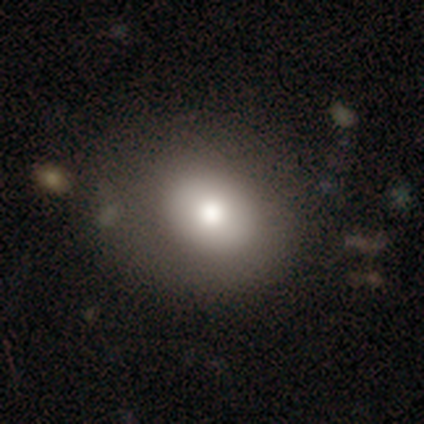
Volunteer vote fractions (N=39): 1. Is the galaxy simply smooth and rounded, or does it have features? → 72% smooth, 18% featured or disk, 10% star or artifact.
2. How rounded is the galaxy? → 61% round, 39% in between, 0% cigar-shaped.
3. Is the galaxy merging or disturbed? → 60% none, 31% minor disturbance, 9% major disturbance, 0% merger.